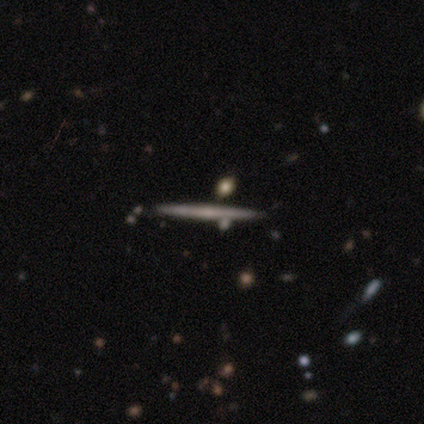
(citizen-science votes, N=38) Smooth or featured? 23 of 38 (61%) said featured or disk. Edge-on disk? 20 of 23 (87%) said yes. Edge-on bulge? 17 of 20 (85%) said none. Merging? 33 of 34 (97%) said none.